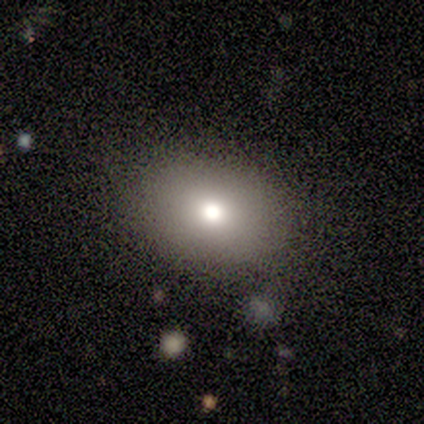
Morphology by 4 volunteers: A smooth galaxy with no disk features (50%, tied with star or artifact) that is round (100%). Merging: none (50%, tied with minor disturbance).